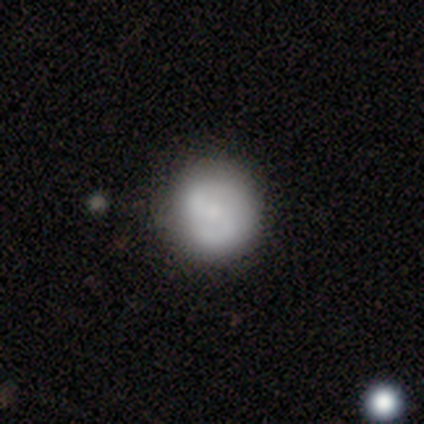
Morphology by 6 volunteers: A smooth galaxy with no disk features (50%, tied with featured or disk) that is round (100%).

Vote fractions:
- Smooth or featured? smooth: 50% (tied) / featured or disk: 50% (tied) / star or artifact: 0%
- How rounded? round: 100% / in between: 0% / cigar-shaped: 0%
- Merging? none: 100% / minor disturbance: 0% / major disturbance: 0% / merger: 0%